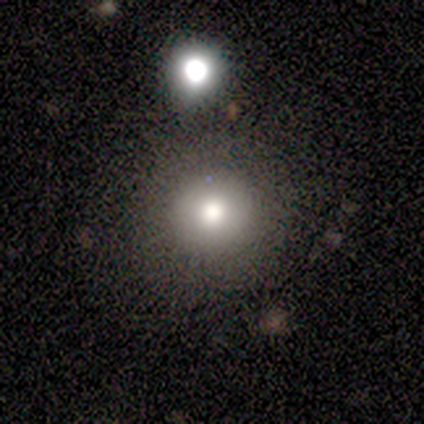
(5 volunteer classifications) smooth 100%, featured or disk 0%, star or artifact 0%. Down the decision tree: how rounded — round (80%); merging — none (80%).